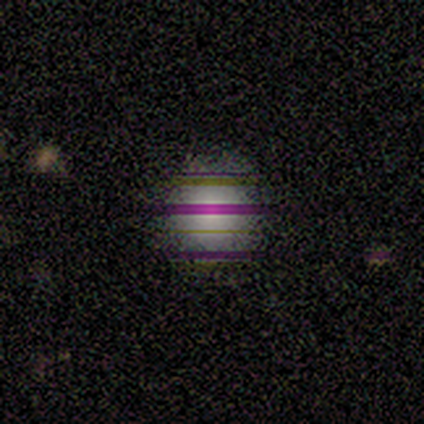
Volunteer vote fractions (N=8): Overall: star or artifact (50%; smooth 38%).